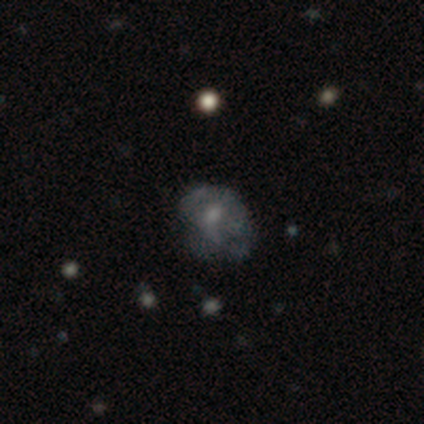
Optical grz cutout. It shows a smooth galaxy with no disk features (55%) that is round (50%, tied with in between). Merging: major disturbance (40%).